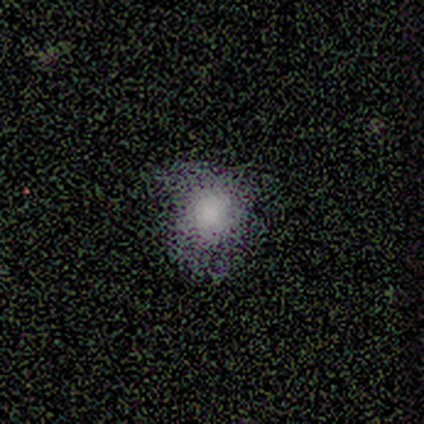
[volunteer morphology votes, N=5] smooth_or_featured: smooth (p=1.00)
how_rounded: round (p=0.80) [alt: in between p=0.20]
merging: none (p=0.80) [alt: minor disturbance p=0.20]